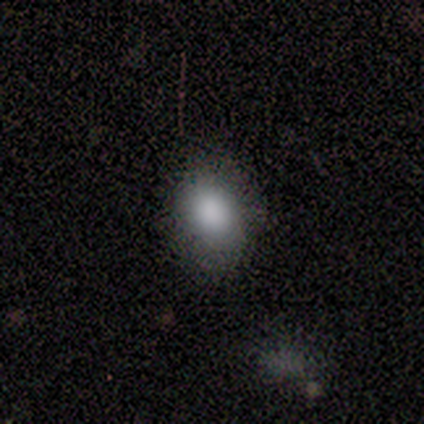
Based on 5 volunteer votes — Smooth or featured?
  - smooth: 100% *
  - featured or disk: 0%
  - star or artifact: 0%
How rounded?
  - in between: 100% *
  - round: 0%
  - cigar-shaped: 0%
Merging?
  - minor disturbance: 60% *
  - none: 40%
  - major disturbance: 0%
  - merger: 0%